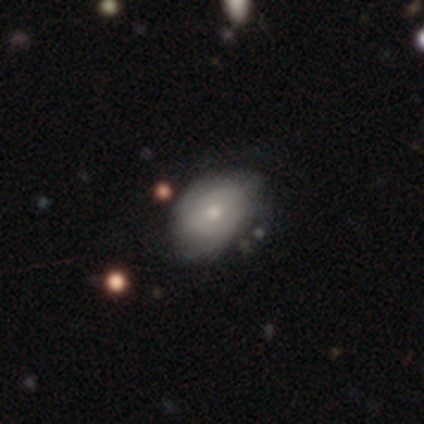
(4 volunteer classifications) Smooth or featured? 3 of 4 (75%) said smooth. How rounded? 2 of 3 (67%) said round. Merging? 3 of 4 (75%) said none.